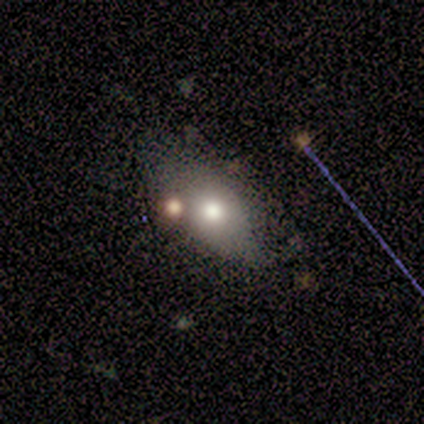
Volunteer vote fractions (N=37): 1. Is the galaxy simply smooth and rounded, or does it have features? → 76% smooth, 16% featured or disk, 8% star or artifact.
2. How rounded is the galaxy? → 86% in between, 11% round, 4% cigar-shaped.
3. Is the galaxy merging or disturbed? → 56% none, 24% minor disturbance, 15% merger, 6% major disturbance.